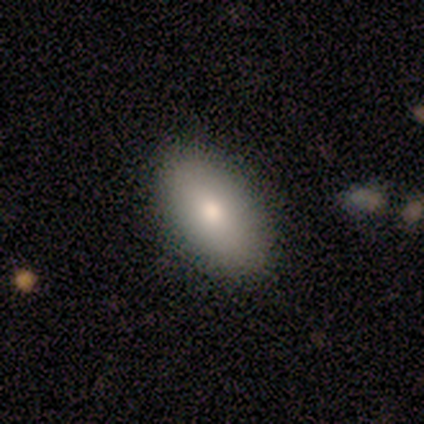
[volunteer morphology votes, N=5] This appears to be a smooth galaxy with no disk features (80%) that is in between round and cigar-shaped (100%). Merging: none (75%).